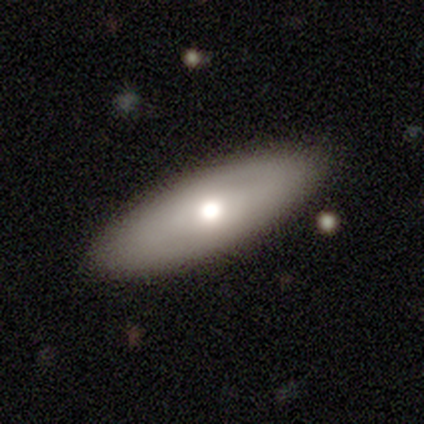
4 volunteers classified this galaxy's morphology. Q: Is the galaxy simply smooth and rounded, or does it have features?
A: smooth — 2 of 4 (50%, tied with featured or disk).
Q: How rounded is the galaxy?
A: in between — 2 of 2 (100%).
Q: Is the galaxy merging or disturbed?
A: none — 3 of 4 (75%).